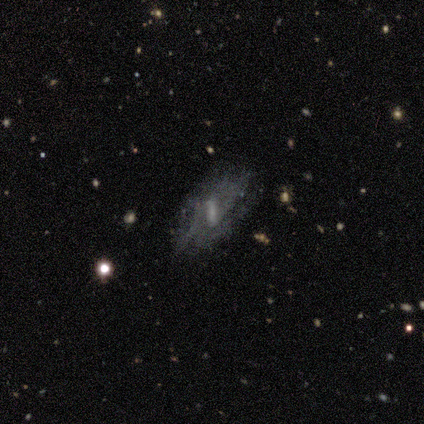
This is clearly a featured or disk galaxy (80%). It is clearly not viewed edge-on (100%). Bar: clearly weak (100%). Spiral arm pattern: possibly yes (50%, tied with no). Spiral arm count: clearly 2 (100%). Spiral winding: possibly medium (50%, tied with loose). Central bulge: likely small (75%). Merging: clearly none (100%).